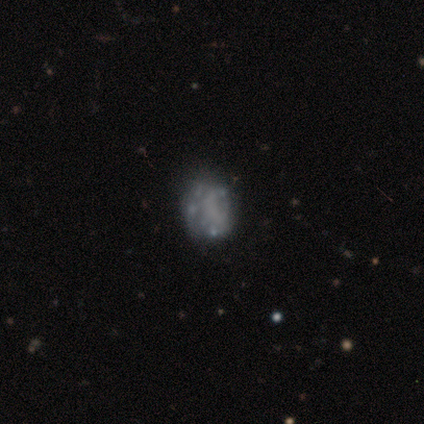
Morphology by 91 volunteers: Smooth or featured? 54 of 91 (59%) said featured or disk. Edge-on disk? 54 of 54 (100%) said no. Bar? 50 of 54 (93%) said no. Spiral arms? 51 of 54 (94%) said no. Bulge size? 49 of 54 (91%) said none. Merging? 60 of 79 (76%) said none.